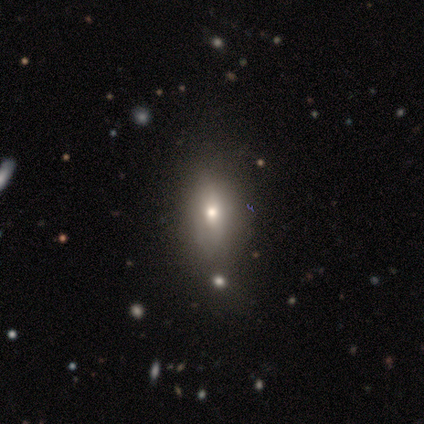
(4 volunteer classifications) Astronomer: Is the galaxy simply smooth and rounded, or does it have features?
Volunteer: featured or disk — 50%.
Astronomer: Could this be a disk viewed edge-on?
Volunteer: yes — 50%, tied with no at 50%.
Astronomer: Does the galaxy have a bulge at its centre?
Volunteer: rounded — 100%.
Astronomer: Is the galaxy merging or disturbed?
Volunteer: none — 67%.